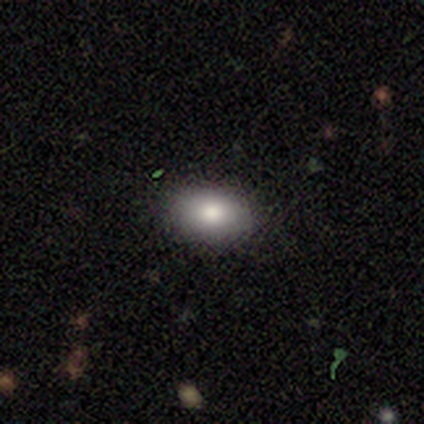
Overall: smooth (50%, tied with featured or disk). How rounded: in between (100%). Merging: none (100%).